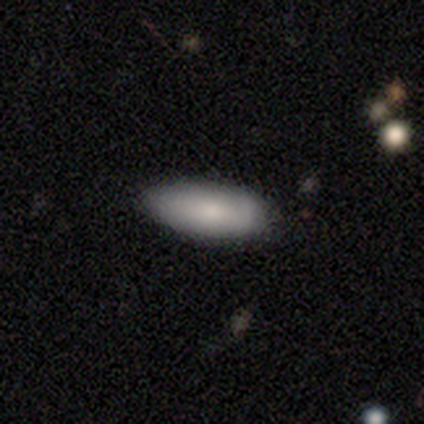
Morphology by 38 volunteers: Volunteers were most divided on "merging": none: 76%, minor disturbance: 24%, major disturbance: 0%, merger: 0%. More confident: smooth or featured — smooth (87%); how rounded — in between (79%).